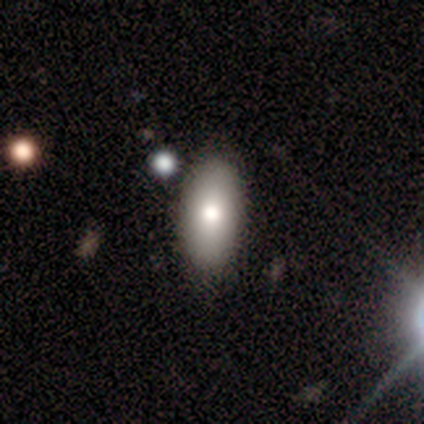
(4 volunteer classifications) smooth 75%, star or artifact 25%, featured or disk 0%. Down the decision tree: how rounded — in between (100%); merging — none (33%, tied with minor disturbance and major disturbance).